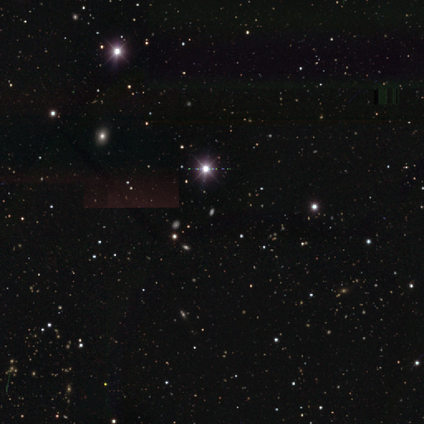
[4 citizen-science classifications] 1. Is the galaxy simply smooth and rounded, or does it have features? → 100% star or artifact, 0% smooth, 0% featured or disk.